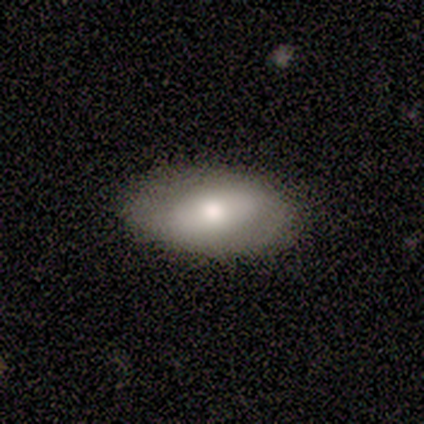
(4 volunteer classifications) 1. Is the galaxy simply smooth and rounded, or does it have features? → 100% smooth, 0% featured or disk, 0% star or artifact.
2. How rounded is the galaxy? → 100% in between, 0% round, 0% cigar-shaped.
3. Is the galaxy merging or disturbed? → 50% none (tied), 50% minor disturbance (tied), 0% major disturbance, 0% merger.